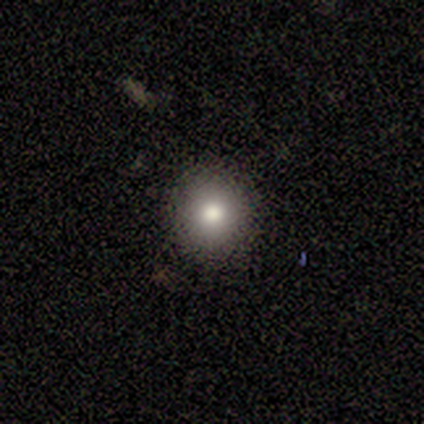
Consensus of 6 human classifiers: This appears to be a smooth galaxy with no disk features (83%) that is round (80%). Merging: none (80%).